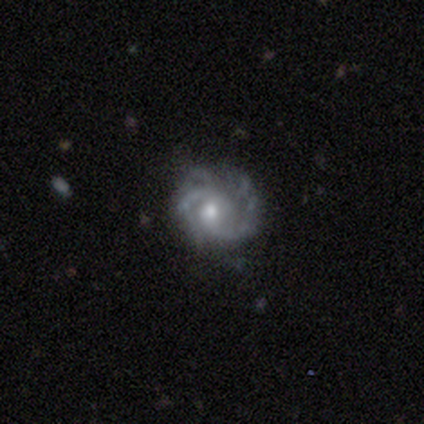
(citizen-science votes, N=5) Q: Smooth or featured?
A: featured or disk (80%); runner-up: smooth (20%)
Q: Edge-on disk?
A: no (100%)
Q: Bar?
A: no (100%)
Q: Spiral arms?
A: yes (100%)
Q: Spiral winding?
A: tight (75%); runner-up: medium (25%)
Q: Spiral arm count?
A: 4 (50%); runner-up: 2 (25%)
Q: Bulge size?
A: moderate (100%)
Q: Merging?
A: none (80%); runner-up: minor disturbance (20%)